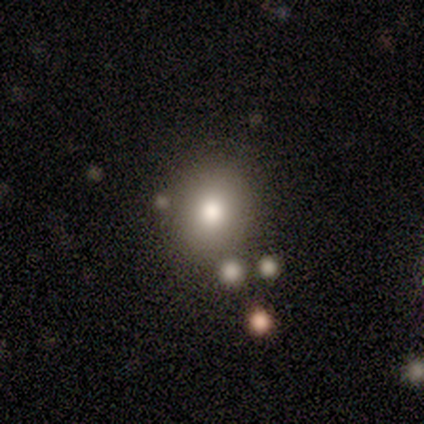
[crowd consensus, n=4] smooth 75%, star or artifact 25%, featured or disk 0%. Down the decision tree: how rounded — round (67%); merging — none (100%).